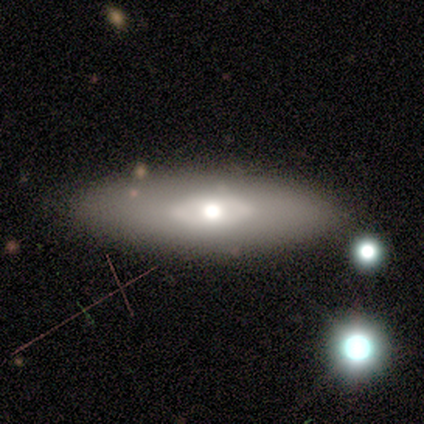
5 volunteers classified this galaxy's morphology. smooth_or_featured: featured or disk (p=0.60) [alt: smooth p=0.40]
disk_edge_on: no (p=0.67) [alt: yes p=0.33]
bar: no (p=1.00)
has_spiral_arms: no (p=1.00)
bulge_size: large (p=0.50) [tied with: moderate p=0.50]
merging: none (p=1.00)